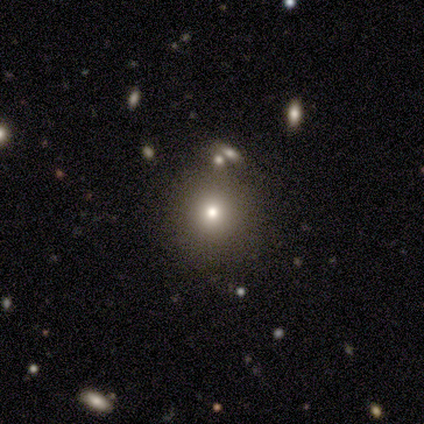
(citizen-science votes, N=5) This is clearly a smooth galaxy (80%). How rounded: clearly round (100%). Merging: clearly none (100%).